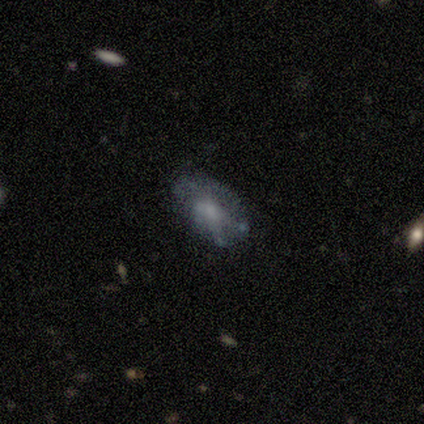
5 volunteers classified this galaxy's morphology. Smooth or featured? featured or disk (80%)
Edge-on disk? no (75%)
Bar? no (100%)
Spiral arms? no (100%)
Bulge size? moderate (100%)
Merging? none (100%)